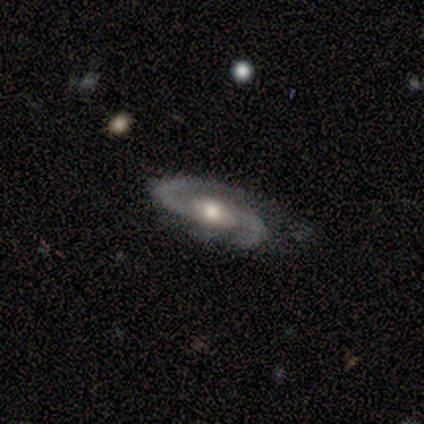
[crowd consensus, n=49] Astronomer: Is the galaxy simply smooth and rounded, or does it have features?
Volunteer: featured or disk — 94%.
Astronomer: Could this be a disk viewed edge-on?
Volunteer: no — 98%.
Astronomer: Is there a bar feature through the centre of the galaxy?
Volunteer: no — 69%.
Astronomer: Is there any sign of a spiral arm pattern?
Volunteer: yes — 98%.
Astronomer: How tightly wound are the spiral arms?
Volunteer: medium — 57%.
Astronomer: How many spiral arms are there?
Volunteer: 2 — 95%.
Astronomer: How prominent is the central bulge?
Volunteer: moderate — 80%.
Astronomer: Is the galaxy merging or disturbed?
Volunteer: none — 60%.